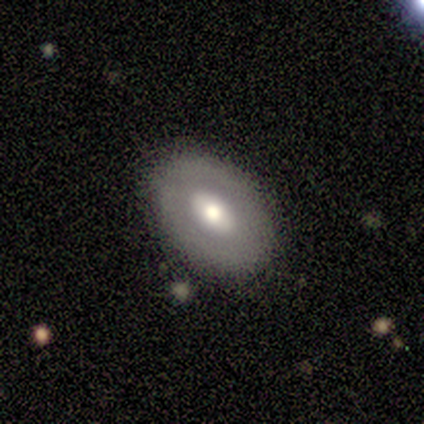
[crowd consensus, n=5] A smooth galaxy with no disk features (80%) that is in between round and cigar-shaped (100%).

Vote fractions:
- Smooth or featured? smooth: 80% / featured or disk: 20% / star or artifact: 0%
- How rounded? in between: 100% / round: 0% / cigar-shaped: 0%
- Merging? none: 100% / minor disturbance: 0% / major disturbance: 0% / merger: 0%